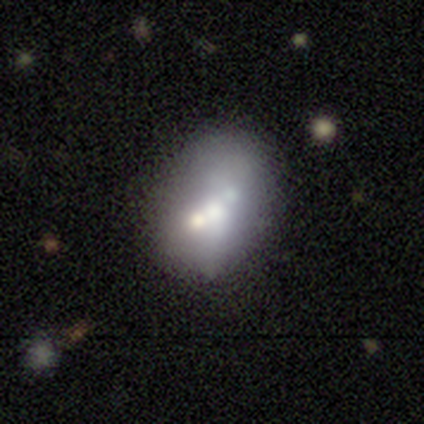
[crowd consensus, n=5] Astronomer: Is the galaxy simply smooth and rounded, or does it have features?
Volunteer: featured or disk — 60%.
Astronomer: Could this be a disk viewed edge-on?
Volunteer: no — 100%.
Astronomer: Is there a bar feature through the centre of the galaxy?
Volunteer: no — 100%.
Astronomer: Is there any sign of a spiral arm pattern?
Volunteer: no — 100%.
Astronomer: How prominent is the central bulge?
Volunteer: large — 33%, tied with moderate and none at 33%.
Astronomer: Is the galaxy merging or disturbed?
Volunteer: none — 50%, tied with merger at 50%.